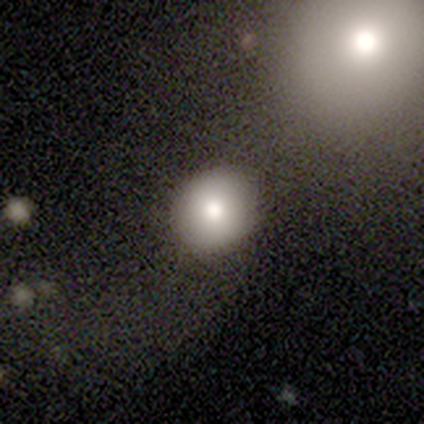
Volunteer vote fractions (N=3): Smooth or featured? smooth (67%)
How rounded? round (50%, tied with in between)
Merging? none (100%)